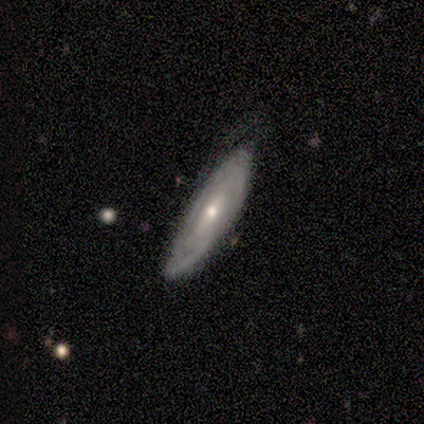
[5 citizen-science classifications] A featured or disk galaxy (80%) viewed edge-on (50%, tied with no) with no central bulge (50%, tied with rounded). Merging: none (60%).